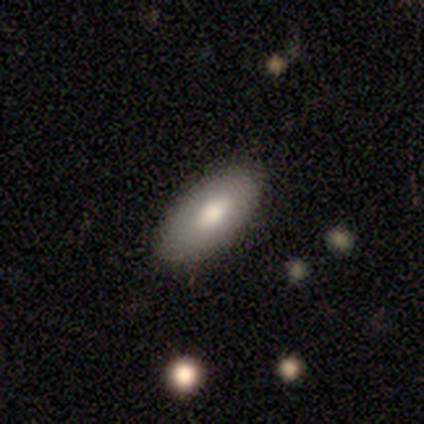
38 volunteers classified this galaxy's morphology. smooth 82%, featured or disk 11%, star or artifact 8%. Down the decision tree: how rounded — in between (94%); merging — none (89%).